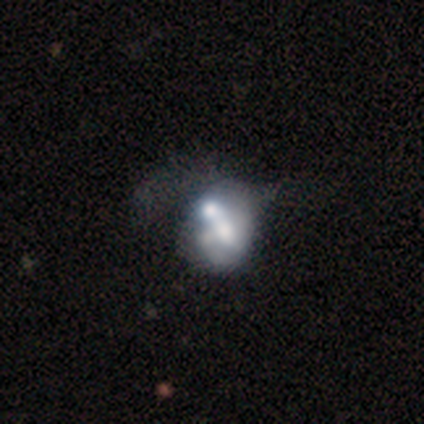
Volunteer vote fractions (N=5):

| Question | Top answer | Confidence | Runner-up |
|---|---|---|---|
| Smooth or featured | featured or disk | 60% | smooth (40%) |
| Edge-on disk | no | 100% | — |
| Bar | no | 100% | — |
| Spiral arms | no | 100% | — |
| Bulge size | none | 67% | large (33%) |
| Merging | none | 40% | tied: merger (40%) |